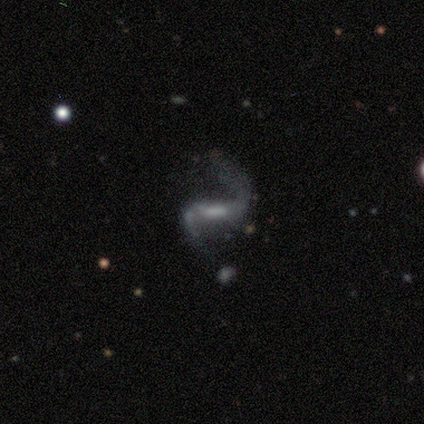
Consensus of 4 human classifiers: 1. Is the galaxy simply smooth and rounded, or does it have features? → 100% featured or disk, 0% smooth, 0% star or artifact.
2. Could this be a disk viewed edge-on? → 100% no, 0% yes.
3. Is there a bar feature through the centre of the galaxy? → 100% strong, 0% weak, 0% no.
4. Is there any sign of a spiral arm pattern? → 100% yes, 0% no.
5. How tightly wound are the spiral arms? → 100% loose, 0% tight, 0% medium.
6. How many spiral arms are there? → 100% 2, 0% 1, 0% 3, 0% 4, 0% more than 4, 0% can't tell.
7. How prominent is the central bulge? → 50% moderate (tied), 50% small (tied), 0% dominant, 0% large, 0% none.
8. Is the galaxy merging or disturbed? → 50% none (tied), 50% minor disturbance (tied), 0% major disturbance, 0% merger.